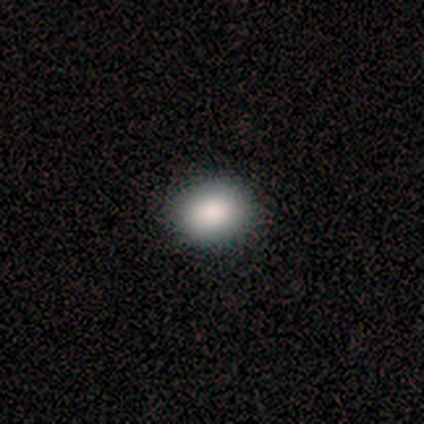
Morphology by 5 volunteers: Smooth or featured? 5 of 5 (100%) said smooth. How rounded? 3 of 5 (60%) said in between. Merging? 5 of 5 (100%) said none.